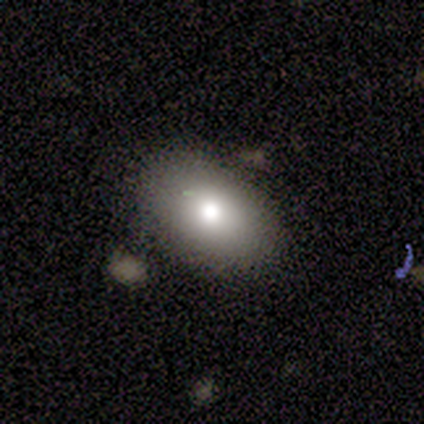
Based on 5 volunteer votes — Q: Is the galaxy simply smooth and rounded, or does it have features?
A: smooth — 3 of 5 (60%).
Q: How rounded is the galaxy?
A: in between — 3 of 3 (100%).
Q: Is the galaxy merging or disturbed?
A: none — 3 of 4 (75%).